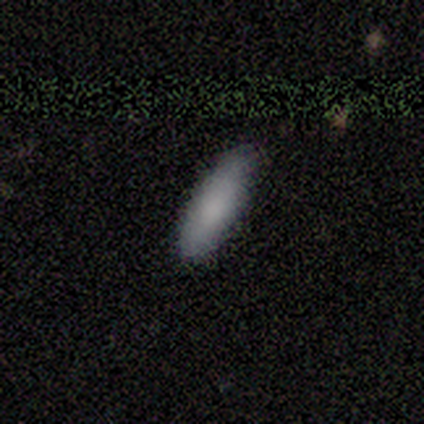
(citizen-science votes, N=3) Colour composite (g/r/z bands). It shows a smooth galaxy with no disk features (100%) that is in between round and cigar-shaped (100%). Merging: none (67%).